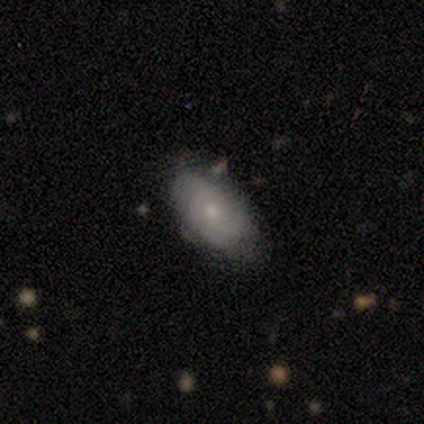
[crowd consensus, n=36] smooth-or-featured: smooth: 47% (tied) | featured or disk: 47% (tied) | star or artifact: 6%
  how-rounded: in between: 100% | round: 0% | cigar-shaped: 0%
  merging: none: 65% | minor disturbance: 24% | major disturbance: 9% | merger: 3%